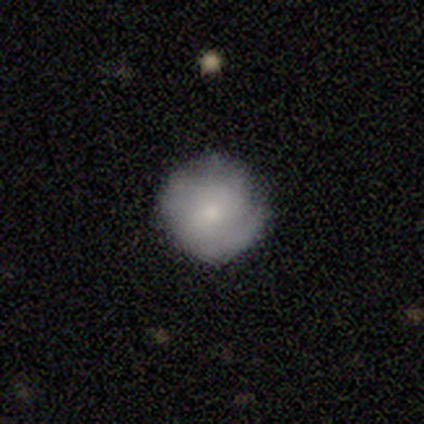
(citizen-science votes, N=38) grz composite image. It shows a smooth galaxy with no disk features (55%) that is round (100%). Merging: none (73%).